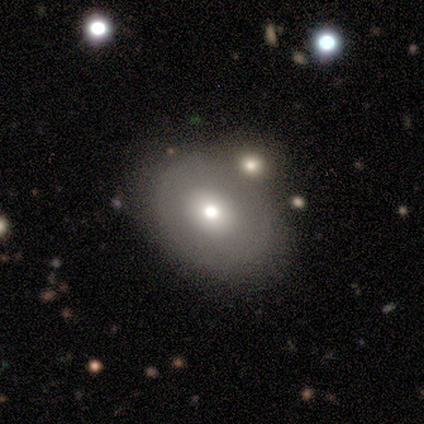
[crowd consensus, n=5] A featured or disk galaxy (60%) with no bar (100%), no spiral arms (100%) and a moderate central bulge (67%). Merging: none (80%).